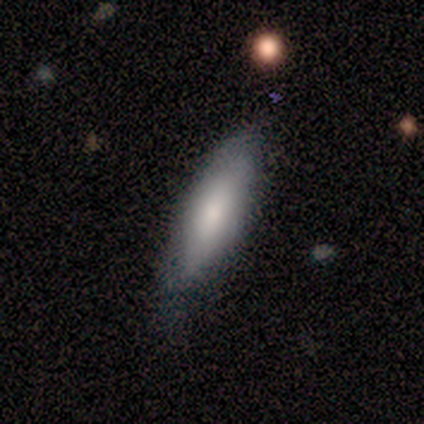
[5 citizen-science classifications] smooth-or-featured: smooth: 100% | featured or disk: 0% | star or artifact: 0%
  how-rounded: in between: 60% | cigar-shaped: 40% | round: 0%
  merging: none: 80% | minor disturbance: 20% | major disturbance: 0% | merger: 0%